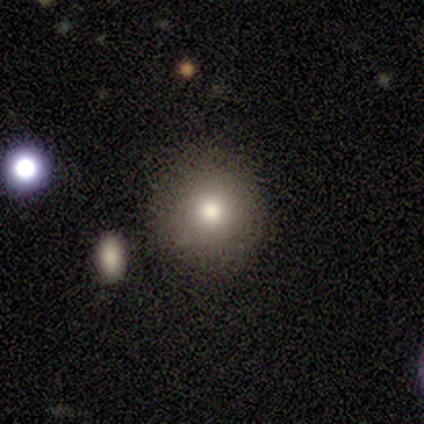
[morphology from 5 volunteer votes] This appears to be a smooth galaxy with no disk features (60%) that is round (67%). Merging: none (100%).